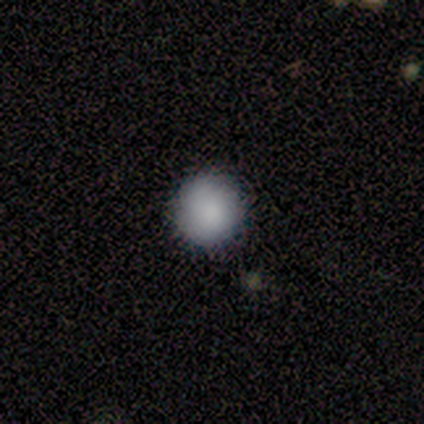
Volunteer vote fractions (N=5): This appears to be a smooth galaxy with no disk features (80%) that is round (100%). Merging: none (100%).